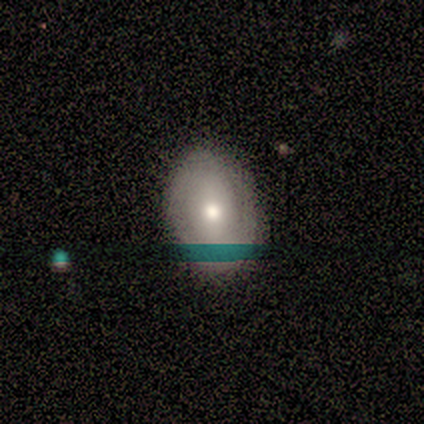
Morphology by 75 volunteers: A smooth galaxy with no disk features (49%) that is in between round and cigar-shaped (70%). Merging: none (80%).